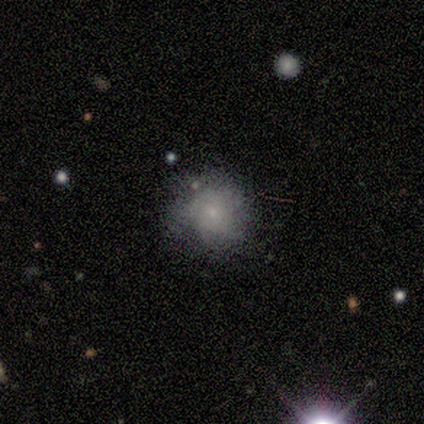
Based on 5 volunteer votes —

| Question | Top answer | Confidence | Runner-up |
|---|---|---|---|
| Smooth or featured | featured or disk | 60% | smooth (40%) |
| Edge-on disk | no | 100% | — |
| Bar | no | 100% | — |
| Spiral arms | no | 100% | — |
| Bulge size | small | 100% | — |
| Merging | none | 60% | minor disturbance (40%) |